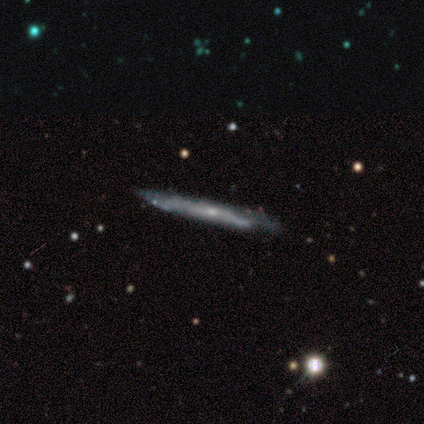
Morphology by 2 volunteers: Q: Smooth or featured?
A: smooth (50%); tied with: featured or disk (50%)
Q: How rounded?
A: cigar-shaped (100%)
Q: Merging?
A: none (100%)